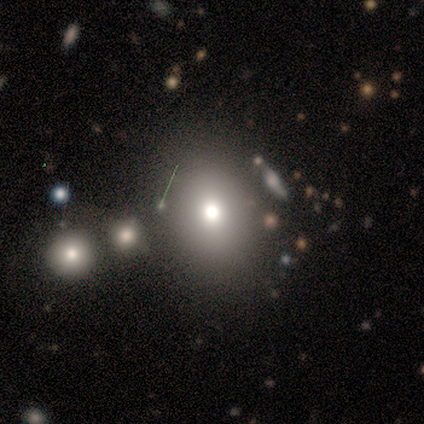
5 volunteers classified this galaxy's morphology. smooth 80%, featured or disk 20%, star or artifact 0%. Down the decision tree: how rounded — round (50%); merging — none (100%).